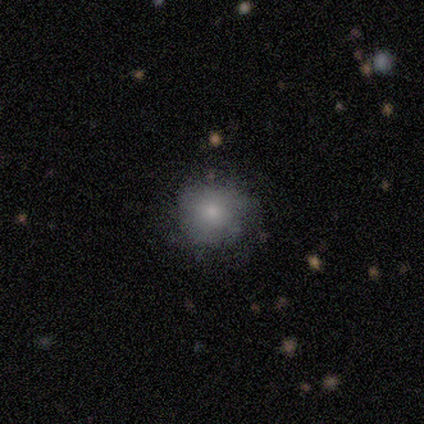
This appears to be a smooth galaxy with no disk features (40%, tied with featured or disk) that is round (100%). Merging: none (75%).